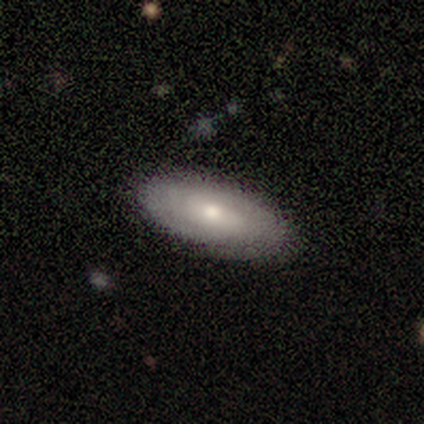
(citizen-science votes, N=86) A smooth galaxy with no disk features (58%) that is in between round and cigar-shaped (88%).

Vote fractions:
- Smooth or featured? smooth: 58% / featured or disk: 36% / star or artifact: 6%
- How rounded? in between: 88% / cigar-shaped: 12% / round: 0%
- Merging? none: 83% / minor disturbance: 16% / major disturbance: 1% / merger: 0%